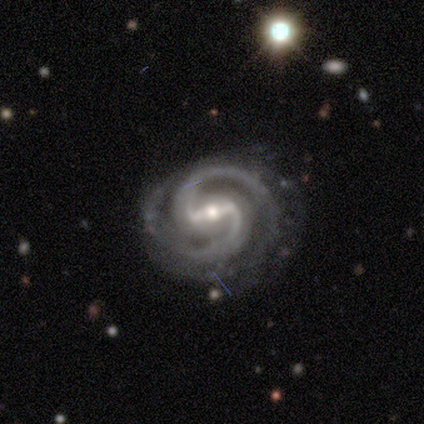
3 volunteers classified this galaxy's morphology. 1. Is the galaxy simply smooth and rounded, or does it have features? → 100% featured or disk, 0% smooth, 0% star or artifact.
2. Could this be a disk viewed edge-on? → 100% no, 0% yes.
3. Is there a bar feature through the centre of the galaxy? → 100% strong, 0% weak, 0% no.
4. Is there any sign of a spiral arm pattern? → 100% yes, 0% no.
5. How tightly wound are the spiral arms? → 100% tight, 0% medium, 0% loose.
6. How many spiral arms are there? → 100% 2, 0% 1, 0% 3, 0% 4, 0% more than 4, 0% can't tell.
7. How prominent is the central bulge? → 33% large (tied), 33% moderate (tied), 33% small (tied), 0% dominant, 0% none.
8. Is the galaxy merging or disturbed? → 100% none, 0% minor disturbance, 0% major disturbance, 0% merger.